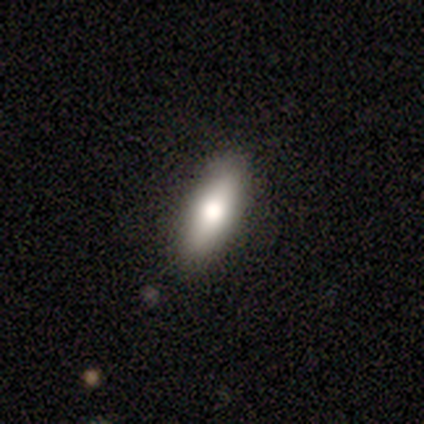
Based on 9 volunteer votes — smooth_or_featured: smooth (p=0.89) [alt: featured or disk p=0.11]
how_rounded: in between (p=0.88) [alt: cigar-shaped p=0.12]
merging: none (p=0.78) [alt: minor disturbance p=0.22]